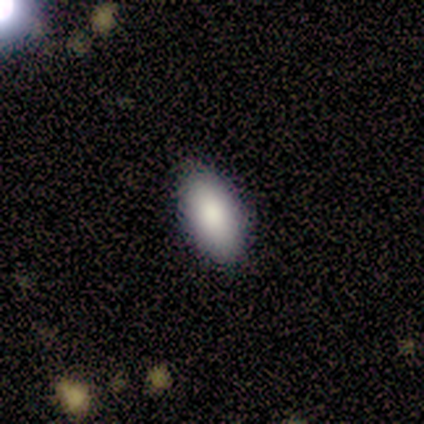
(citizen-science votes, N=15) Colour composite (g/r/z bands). It shows a smooth galaxy with no disk features (100%) that is in between round and cigar-shaped (93%). Merging: none (93%).